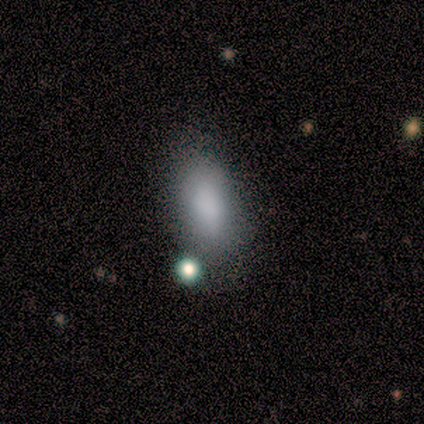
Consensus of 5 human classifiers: smooth 100%, featured or disk 0%, star or artifact 0%. Down the decision tree: how rounded — in between (60%); merging — none (100%).